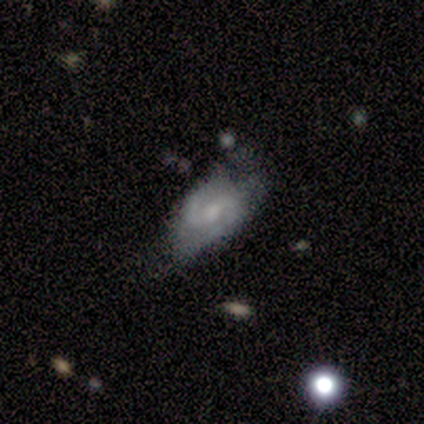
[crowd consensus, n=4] Smooth or featured: featured or disk — 75% (smooth — 25%)
Edge-on disk: no — 100%
Bar: no — 67% (weak — 33%)
Spiral arms: yes — 100%
Spiral winding: tight — 33% (tied with medium — 33%; loose — 33%)
Spiral arm count: 2 — 100%
Bulge size: none — 67% (large — 33%)
Merging: major disturbance — 50% (none — 25%)